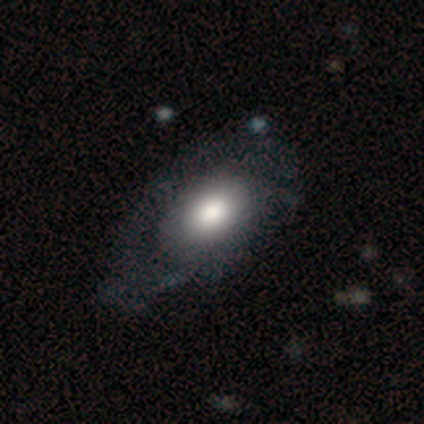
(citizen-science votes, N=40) This appears to be a smooth galaxy with no disk features (62%) that is in between round and cigar-shaped (92%). Merging: none (26%).